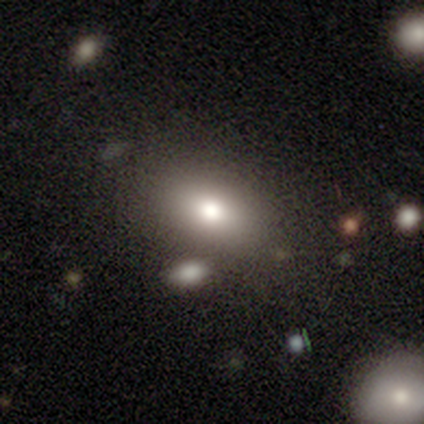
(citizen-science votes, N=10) A smooth galaxy with no disk features (70%) that is in between round and cigar-shaped (86%). Merging: none (78%).